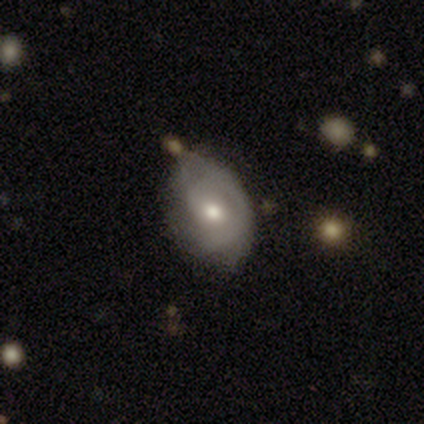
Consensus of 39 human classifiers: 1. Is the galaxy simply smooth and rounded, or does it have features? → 59% featured or disk, 36% smooth, 5% star or artifact.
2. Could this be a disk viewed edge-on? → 96% no, 4% yes.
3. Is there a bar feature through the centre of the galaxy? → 64% no, 23% weak, 14% strong.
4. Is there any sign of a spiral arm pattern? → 82% yes, 18% no.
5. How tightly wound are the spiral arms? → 44% tight, 28% medium, 28% loose.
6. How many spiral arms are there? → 50% can't tell, 39% 1, 6% 2, 6% 3, 0% 4, 0% more than 4.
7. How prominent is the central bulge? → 68% moderate, 18% small, 9% large, 5% dominant, 0% none.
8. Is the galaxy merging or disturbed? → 57% none, 35% minor disturbance, 5% major disturbance, 3% merger.